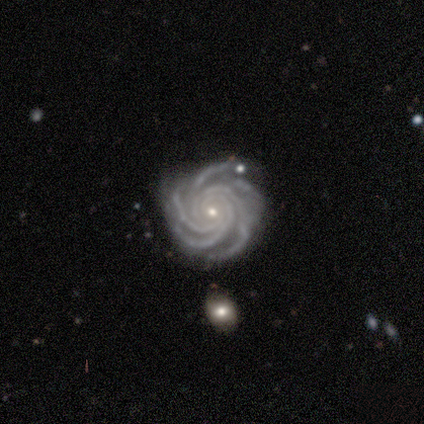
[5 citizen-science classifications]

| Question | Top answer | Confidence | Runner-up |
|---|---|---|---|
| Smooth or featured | featured or disk | 100% | — |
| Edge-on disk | no | 100% | — |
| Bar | no | 80% | weak (20%) |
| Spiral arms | yes | 100% | — |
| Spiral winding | tight | 100% | — |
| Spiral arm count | more than 4 | 60% | 4 (20%) |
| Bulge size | small | 100% | — |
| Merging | none | 60% | minor disturbance (20%) |